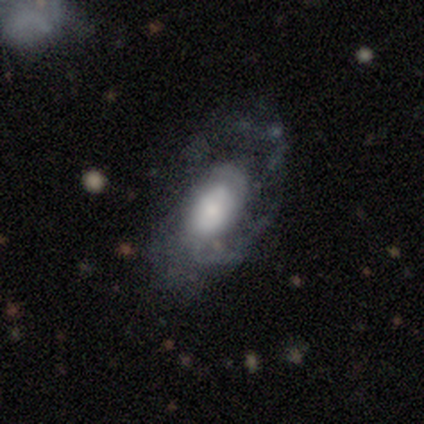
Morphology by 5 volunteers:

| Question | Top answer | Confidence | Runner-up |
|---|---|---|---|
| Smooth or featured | featured or disk | 100% | — |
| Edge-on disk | no | 100% | — |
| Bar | no | 80% | weak (20%) |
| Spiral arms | yes | 100% | — |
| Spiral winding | medium | 80% | tight (20%) |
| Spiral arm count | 1 | 40% | 2 (20%) |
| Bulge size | small | 60% | large (40%) |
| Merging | minor disturbance | 60% | none (40%) |